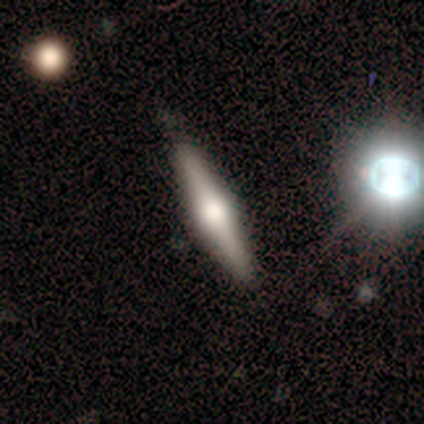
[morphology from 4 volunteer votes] Overall: featured or disk (100%). Edge-on disk: yes (100%). Edge-on bulge: rounded (100%). Merging: none (100%).